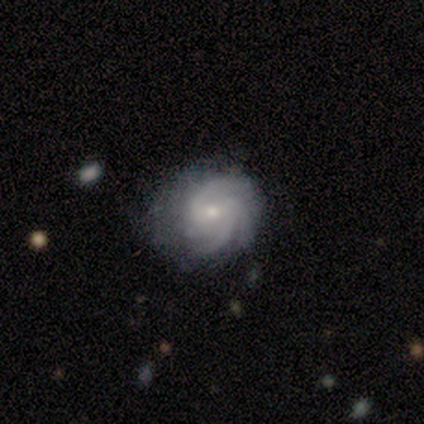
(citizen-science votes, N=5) Volunteers were most divided on "bar": weak: 60%, no: 40%, strong: 0%. More confident: smooth or featured — featured or disk (100%); edge-on disk — no (100%); spiral arms — yes (100%); spiral arm count — 4 (80%); merging — none (80%); spiral winding — tight (60%); bulge size — small (60%).